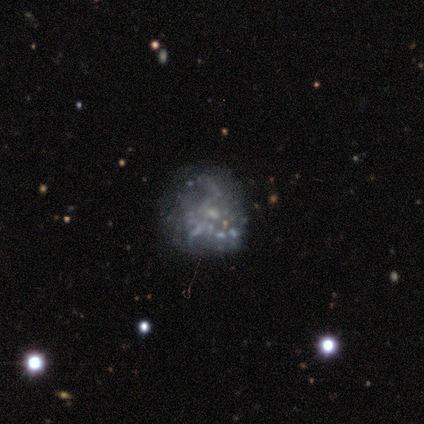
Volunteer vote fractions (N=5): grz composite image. It shows a featured or disk galaxy (60%) with no bar (100%), no spiral arms (67%) and a moderate central bulge (33%, tied with small and none). Merging: none (75%).